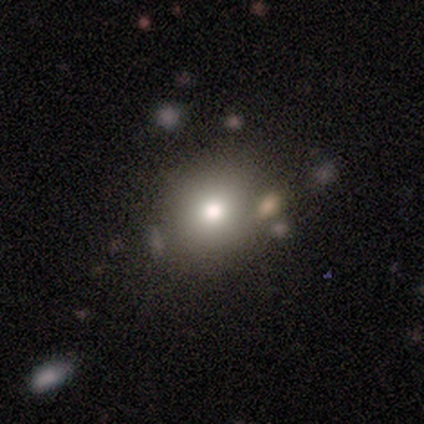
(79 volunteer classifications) Overall: smooth (72%). How rounded: round (93%). Merging: none (40%; merger 13%).